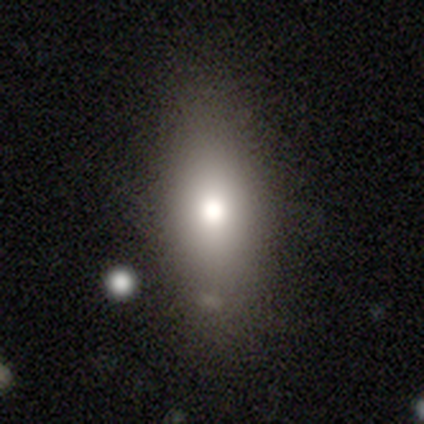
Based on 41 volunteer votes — This is clearly a smooth galaxy (83%). How rounded: likely in between (76%). Merging: likely none (67%).